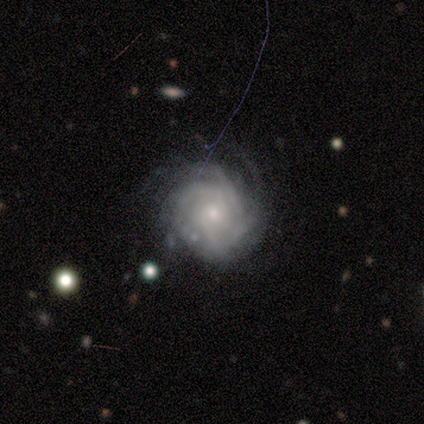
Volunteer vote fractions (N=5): smooth-or-featured: featured or disk: 100% | smooth: 0% | star or artifact: 0%
  disk-edge-on: no: 100% | yes: 0%
    bar: no: 80% | strong: 20% | weak: 0%
    has-spiral-arms: yes: 100% | no: 0%
      spiral-winding: tight: 80% | medium: 20% | loose: 0%
      spiral-arm-count: 4: 60% | can't tell: 40% | 1: 0% | 2: 0% | 3: 0% | more than 4: 0%
    bulge-size: small: 100% | dominant: 0% | large: 0% | moderate: 0% | none: 0%
  merging: none: 60% | minor disturbance: 20% | major disturbance: 20% | merger: 0%